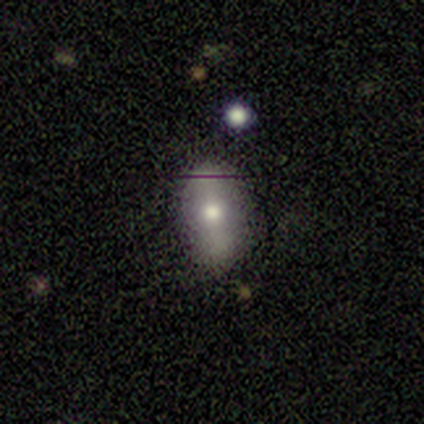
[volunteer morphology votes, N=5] smooth-or-featured: smooth: 80% | featured or disk: 20% | star or artifact: 0%
  how-rounded: in between: 100% | round: 0% | cigar-shaped: 0%
  merging: none: 60% | minor disturbance: 20% | merger: 20% | major disturbance: 0%